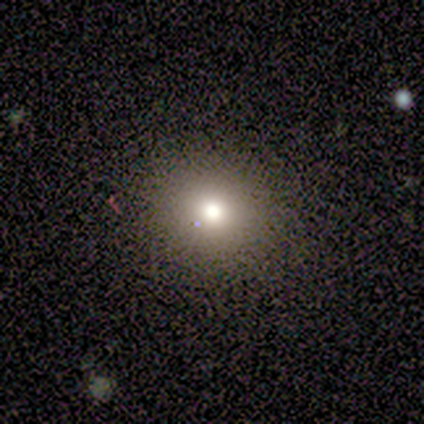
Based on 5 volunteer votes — Smooth or featured?
  - smooth: 60% *
  - featured or disk: 20%
  - star or artifact: 20%
How rounded?
  - round: 100% *
  - in between: 0%
  - cigar-shaped: 0%
Merging?
  - none: 100% *
  - minor disturbance: 0%
  - major disturbance: 0%
  - merger: 0%